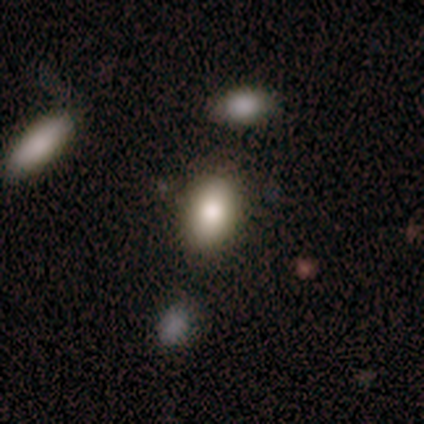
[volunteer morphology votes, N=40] Overall: smooth (90%). How rounded: in between (89%). Merging: none (72%).